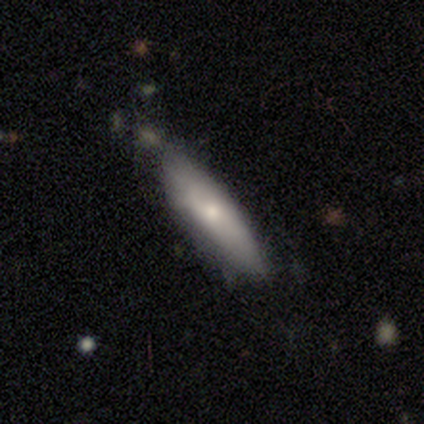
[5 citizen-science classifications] smooth 60%, featured or disk 40%, star or artifact 0%. Down the decision tree: how rounded — cigar-shaped (67%); merging — none (40%, tied with minor disturbance).